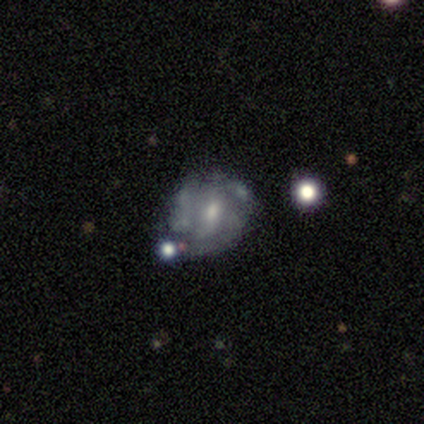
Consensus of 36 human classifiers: featured or disk 72%, smooth 17%, star or artifact 11%. Down the decision tree: edge-on disk — no (100%); bar — no (69%); spiral arms — yes (58%); spiral arm count — can't tell (40%); spiral winding — tight (53%); bulge size — moderate (54%); merging — none (56%).